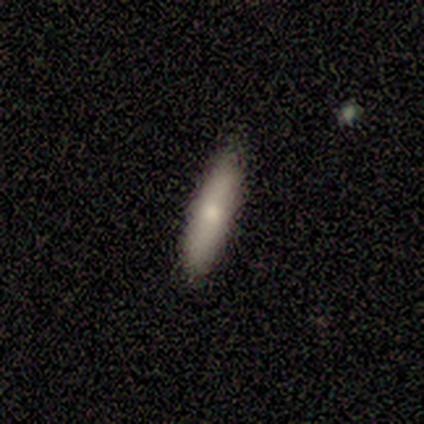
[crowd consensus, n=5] smooth-or-featured: featured or disk: 60% | smooth: 40% | star or artifact: 0%
  disk-edge-on: yes: 67% | no: 33%
    edge-on-bulge: rounded: 100% | boxy: 0% | none: 0%
  merging: none: 100% | minor disturbance: 0% | major disturbance: 0% | merger: 0%